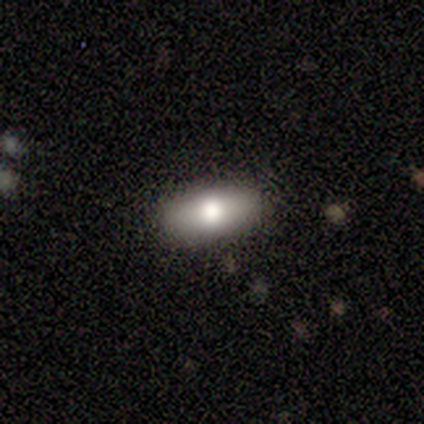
Smooth or featured? 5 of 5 (100%) said smooth. How rounded? 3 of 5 (60%) said in between. Merging? 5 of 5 (100%) said none.